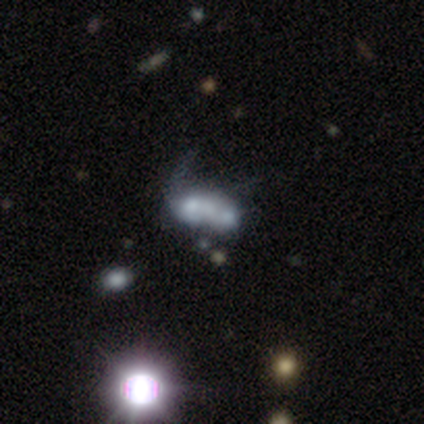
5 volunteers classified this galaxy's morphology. A featured or disk galaxy (80%) with no bar (100%), no spiral arms (75%) and no central bulge (50%). Merging: merger (40%).